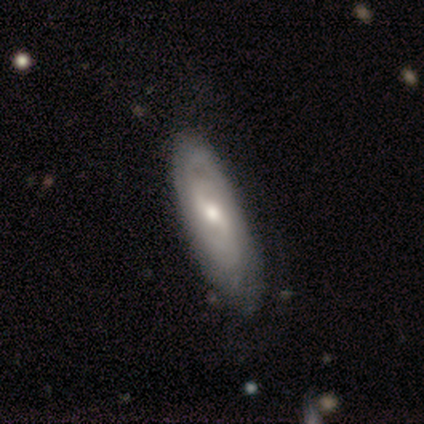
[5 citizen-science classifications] Smooth or featured? 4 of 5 (80%) said featured or disk. Edge-on disk? 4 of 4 (100%) said no. Bar? 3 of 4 (75%) said weak. Spiral arms? 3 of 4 (75%) said yes. Spiral winding? 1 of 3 (33%, tied with medium and loose) said tight. Spiral arm count? 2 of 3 (67%) said 2. Bulge size? 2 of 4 (50%, tied with small) said moderate. Merging? 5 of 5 (100%) said none.